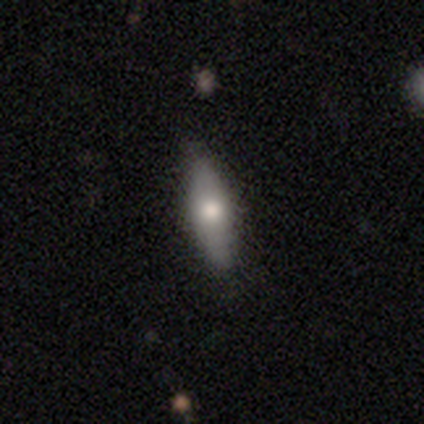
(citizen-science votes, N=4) A smooth galaxy with no disk features (50%, tied with featured or disk) that is cigar-shaped (100%). Merging: none (50%, tied with minor disturbance).